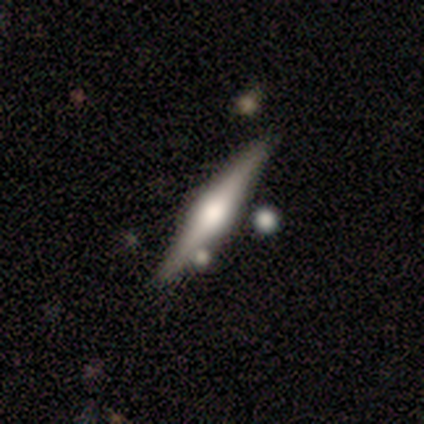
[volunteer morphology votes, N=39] Smooth or featured: featured or disk — 74% (smooth — 18%)
Edge-on disk: yes — 100%
Edge-on bulge: rounded — 93% (boxy — 7%)
Merging: none — 78% (merger — 11%)